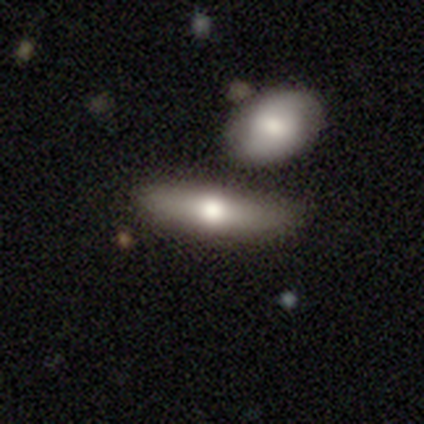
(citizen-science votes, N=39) This is possibly a smooth galaxy (54%). How rounded: likely cigar-shaped (62%). Merging: possibly none (59%).